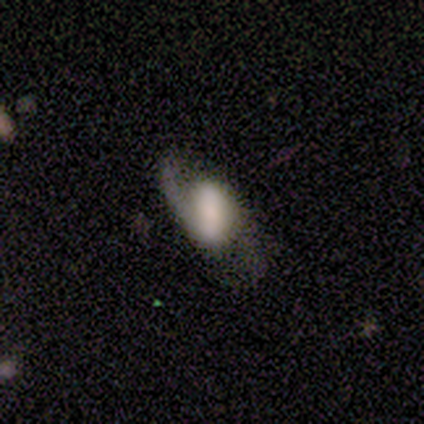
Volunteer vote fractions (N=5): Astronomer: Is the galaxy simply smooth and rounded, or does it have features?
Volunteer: featured or disk — 60% (runner-up: smooth, 40%).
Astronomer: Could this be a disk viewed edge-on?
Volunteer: no — 100%.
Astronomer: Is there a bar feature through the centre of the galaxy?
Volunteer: no — 67%.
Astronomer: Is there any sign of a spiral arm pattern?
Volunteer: yes — 100%.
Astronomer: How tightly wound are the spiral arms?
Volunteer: loose — 100%.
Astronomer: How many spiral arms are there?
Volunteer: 2 — 100%.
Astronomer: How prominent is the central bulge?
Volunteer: large — 67%.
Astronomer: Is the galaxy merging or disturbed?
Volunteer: none — 60% (runner-up: minor disturbance, 40%).